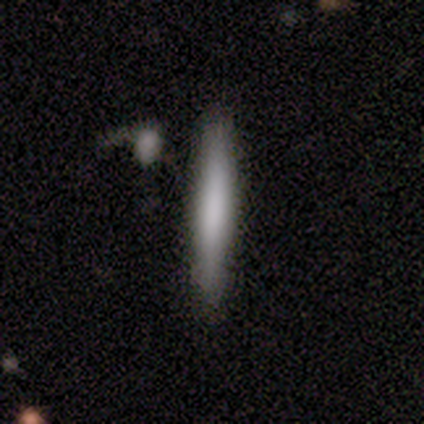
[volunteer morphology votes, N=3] featured or disk 67%, smooth 33%, star or artifact 0%. Down the decision tree: edge-on disk — yes (100%); edge-on bulge — none (100%); merging — none (67%).